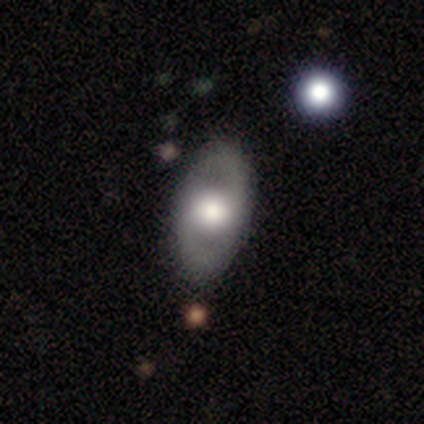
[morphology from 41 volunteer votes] featured or disk 66%, smooth 32%, star or artifact 2%. Down the decision tree: edge-on disk — no (93%); bar — no (80%); spiral arms — no (76%); bulge size — large (48%); merging — none (90%).